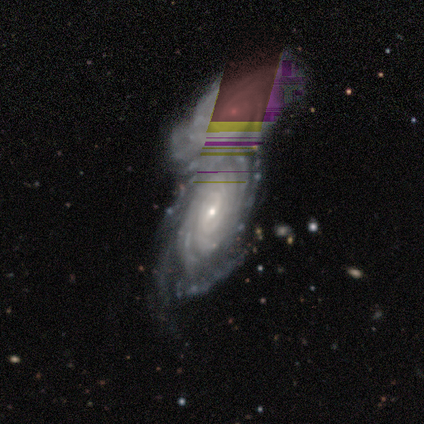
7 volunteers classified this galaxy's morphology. smooth-or-featured: featured or disk: 86% | star or artifact: 14% | smooth: 0%
  disk-edge-on: no: 100% | yes: 0%
    bar: strong: 50% (tied) | weak: 50% (tied) | no: 0%
    has-spiral-arms: yes: 100% | no: 0%
      spiral-winding: tight: 100% | medium: 0% | loose: 0%
      spiral-arm-count: can't tell: 50% | 3: 17% | 4: 17% | more than 4: 17% | 1: 0% | 2: 0%
    bulge-size: small: 100% | dominant: 0% | large: 0% | moderate: 0% | none: 0%
  merging: merger: 67% | none: 17% | major disturbance: 17% | minor disturbance: 0%